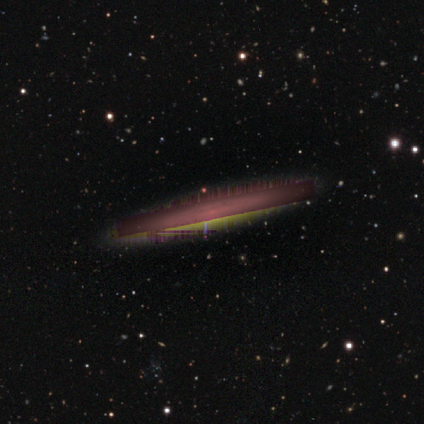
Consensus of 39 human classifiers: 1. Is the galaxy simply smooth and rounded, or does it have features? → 69% star or artifact, 23% featured or disk, 8% smooth.